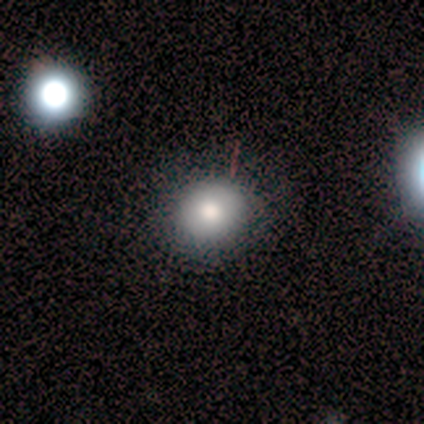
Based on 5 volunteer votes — Smooth or featured? smooth (100%)
How rounded? round (60%)
Merging? none (80%)